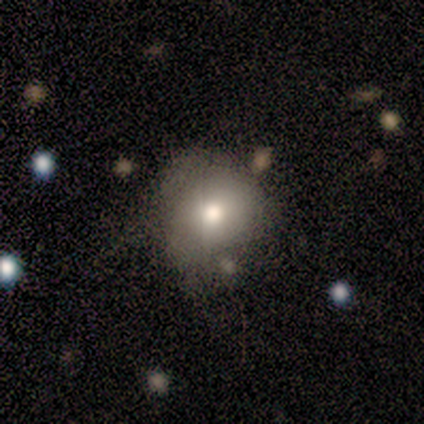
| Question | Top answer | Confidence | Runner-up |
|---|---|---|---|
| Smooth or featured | smooth | 80% | featured or disk (20%) |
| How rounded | round | 75% | in between (25%) |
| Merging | minor disturbance | 60% | none (20%) |